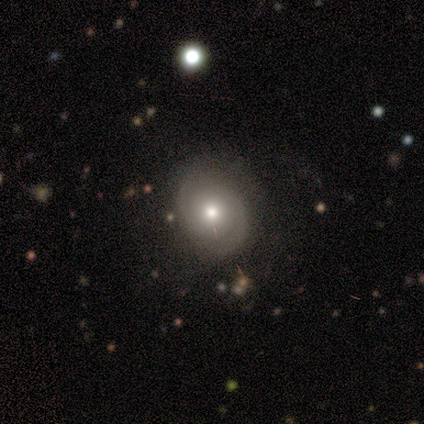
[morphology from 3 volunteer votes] type=featured or disk (67%); edge-on=no (100%); bar=weak (50%, tied with no); spiral arms=yes (100%); winding=medium (100%); arm count=2 (100%); bulge=moderate (100%); merging=none (100%).